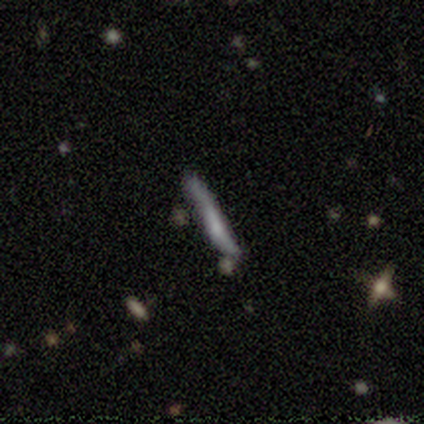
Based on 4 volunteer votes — Morphology: type=featured or disk (75%); edge-on=yes (100%); edge-on bulge=none (67%); merging=none (50%).